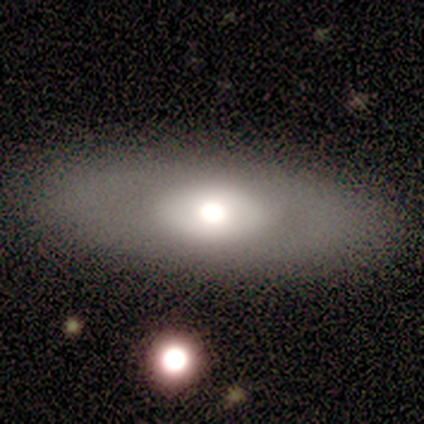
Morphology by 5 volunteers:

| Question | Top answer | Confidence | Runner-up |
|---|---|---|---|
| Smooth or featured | featured or disk | 80% | smooth (20%) |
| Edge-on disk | no | 100% | — |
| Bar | no | 75% | weak (25%) |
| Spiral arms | no | 75% | yes (25%) |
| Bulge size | large | 50% | tied: moderate (50%) |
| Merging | none | 80% | minor disturbance (20%) |